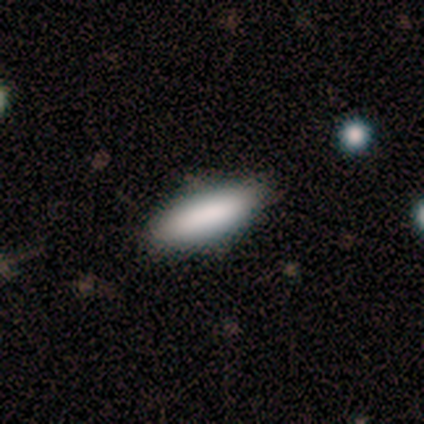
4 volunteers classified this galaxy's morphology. Smooth or featured?
  - smooth: 75% *
  - featured or disk: 25%
  - star or artifact: 0%
How rounded?
  - cigar-shaped: 67% *
  - in between: 33%
  - round: 0%
Merging?
  - none: 100% *
  - minor disturbance: 0%
  - major disturbance: 0%
  - merger: 0%